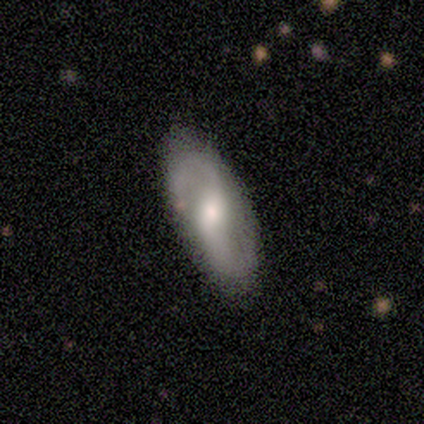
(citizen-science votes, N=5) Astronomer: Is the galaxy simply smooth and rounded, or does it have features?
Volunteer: featured or disk — 80%.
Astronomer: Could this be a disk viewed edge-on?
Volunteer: no — 75%.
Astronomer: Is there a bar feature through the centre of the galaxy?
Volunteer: weak — 67%.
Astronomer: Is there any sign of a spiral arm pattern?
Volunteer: yes — 67%.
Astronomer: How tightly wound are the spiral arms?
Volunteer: loose — 100%.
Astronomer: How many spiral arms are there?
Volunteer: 2 — 100%.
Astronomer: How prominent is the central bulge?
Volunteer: moderate — 100%.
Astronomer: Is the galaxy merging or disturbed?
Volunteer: none — 75%.